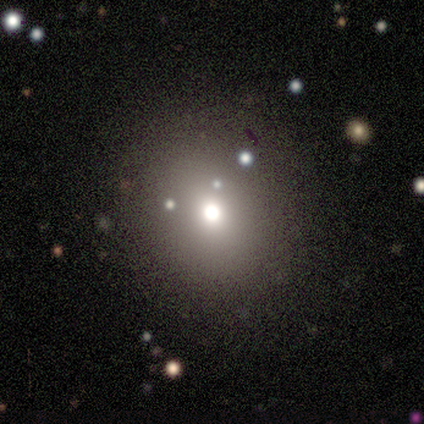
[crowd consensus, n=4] Volunteers were most divided on "smooth or featured": star or artifact: 75%, featured or disk: 25%, smooth: 0%.